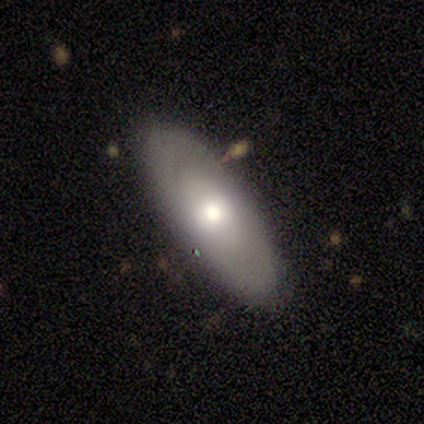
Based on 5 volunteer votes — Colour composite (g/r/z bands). It shows a featured or disk galaxy (60%) with a weak bar (100%), 2 (50%, tied with can't tell) tight (50%, tied with loose) spiral arms (67%) and a moderate central bulge (67%). Merging: none (80%).